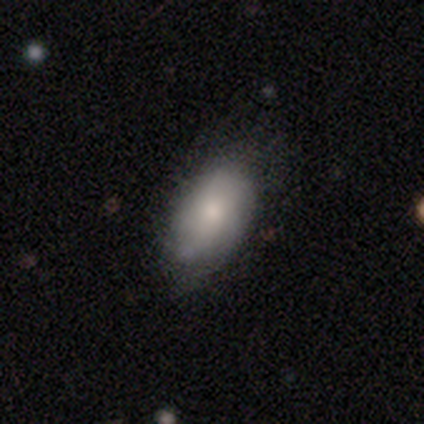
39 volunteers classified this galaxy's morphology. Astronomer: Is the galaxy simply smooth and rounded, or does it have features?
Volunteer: smooth — 69%.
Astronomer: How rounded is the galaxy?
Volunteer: in between — 96%.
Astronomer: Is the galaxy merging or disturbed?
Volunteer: none — 60%.